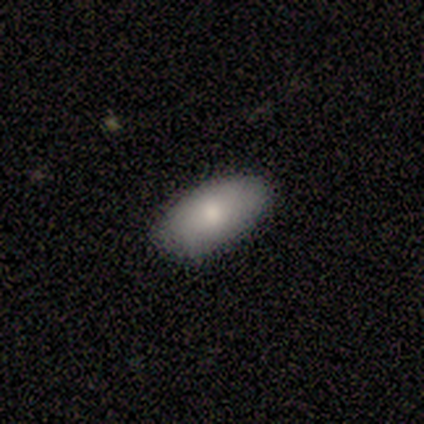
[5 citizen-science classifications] This is clearly a smooth galaxy (100%). How rounded: clearly in between (100%). Merging: clearly none (100%).